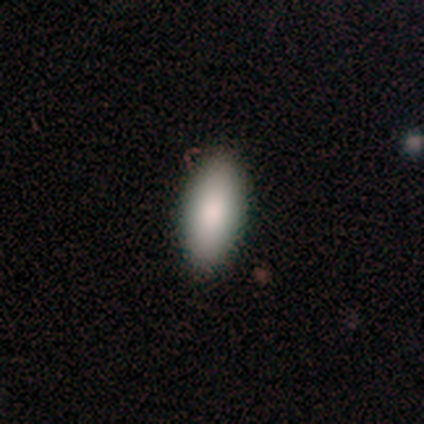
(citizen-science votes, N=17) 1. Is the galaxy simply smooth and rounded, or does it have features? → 94% smooth, 6% featured or disk, 0% star or artifact.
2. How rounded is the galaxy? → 100% in between, 0% round, 0% cigar-shaped.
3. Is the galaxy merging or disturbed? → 82% none, 18% minor disturbance, 0% major disturbance, 0% merger.